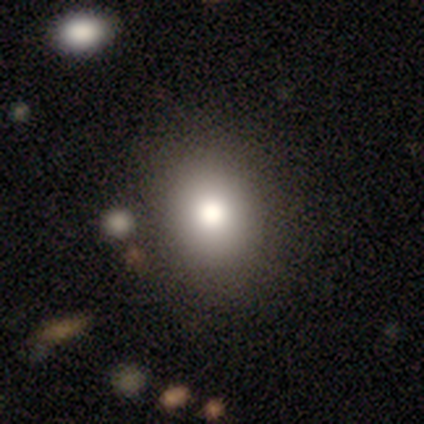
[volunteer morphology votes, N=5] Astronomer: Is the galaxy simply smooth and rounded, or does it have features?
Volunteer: featured or disk — 60% (runner-up: smooth, 40%).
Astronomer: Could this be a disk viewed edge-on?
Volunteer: no — 100%.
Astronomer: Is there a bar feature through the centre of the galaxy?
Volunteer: no — 100%.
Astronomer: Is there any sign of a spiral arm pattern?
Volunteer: no — 100%.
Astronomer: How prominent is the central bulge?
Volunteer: dominant — 67%.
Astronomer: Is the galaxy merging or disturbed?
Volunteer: none — 100%.